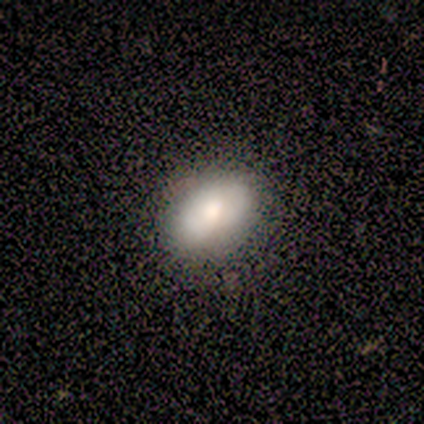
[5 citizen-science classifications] Q: Smooth or featured?
A: smooth (60%); runner-up: featured or disk (20%)
Q: How rounded?
A: in between (67%); runner-up: round (33%)
Q: Merging?
A: none (75%); runner-up: minor disturbance (25%)